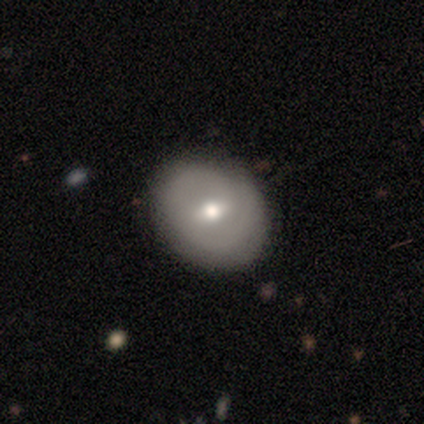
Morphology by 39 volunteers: A smooth galaxy with no disk features (51%) that is round (50%, tied with in between). Merging: none (66%).